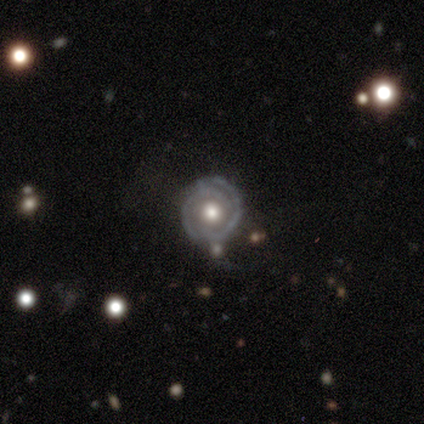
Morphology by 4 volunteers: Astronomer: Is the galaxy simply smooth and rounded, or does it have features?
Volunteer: featured or disk — 100%.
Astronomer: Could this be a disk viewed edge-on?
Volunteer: no — 100%.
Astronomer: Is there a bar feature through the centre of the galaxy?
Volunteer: no — 100%.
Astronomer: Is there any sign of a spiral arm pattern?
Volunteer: yes — 75%.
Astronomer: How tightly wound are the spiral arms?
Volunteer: tight — 67%.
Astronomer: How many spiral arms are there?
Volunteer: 2 — 100%.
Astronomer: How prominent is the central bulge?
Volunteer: moderate — 75%.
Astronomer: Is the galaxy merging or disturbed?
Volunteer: none — 75%.